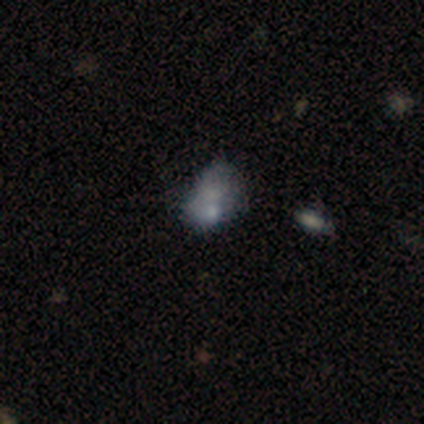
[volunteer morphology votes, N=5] This is likely a smooth galaxy (60%). How rounded: clearly in between (100%). Merging: possibly merger (50%).